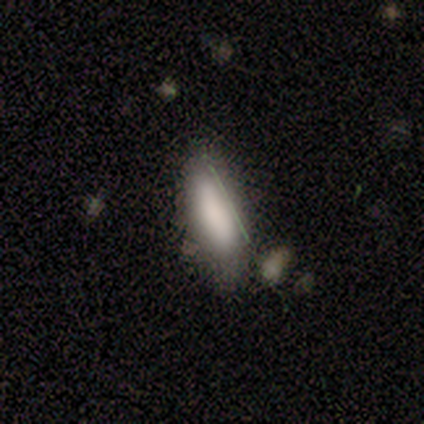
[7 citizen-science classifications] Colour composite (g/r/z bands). It shows a smooth galaxy with no disk features (71%) that is in between round and cigar-shaped (60%). Merging: none (71%).